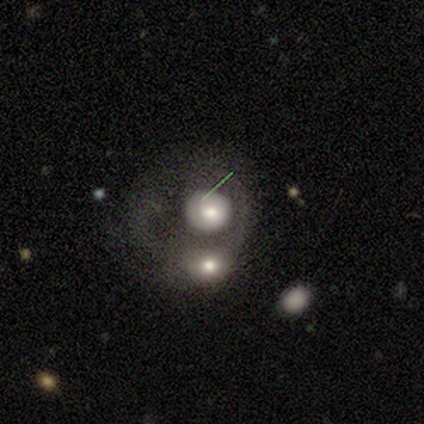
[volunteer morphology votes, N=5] This appears to be a smooth galaxy with no disk features (40%, tied with featured or disk) that is round (50%, tied with in between). Merging: merger (100%).